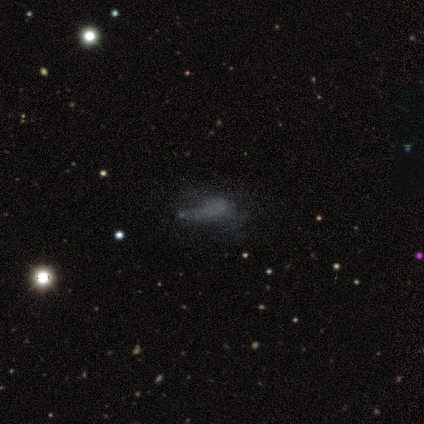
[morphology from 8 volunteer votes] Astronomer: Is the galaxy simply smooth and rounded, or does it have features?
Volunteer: featured or disk — 50%.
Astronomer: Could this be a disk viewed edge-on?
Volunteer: no — 100%.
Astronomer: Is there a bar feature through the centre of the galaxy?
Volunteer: no — 75%.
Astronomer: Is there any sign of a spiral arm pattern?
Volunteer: no — 100%.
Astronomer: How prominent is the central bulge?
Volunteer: none — 100%.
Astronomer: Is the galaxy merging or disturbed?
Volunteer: minor disturbance — 50% (runner-up: none, 33%).